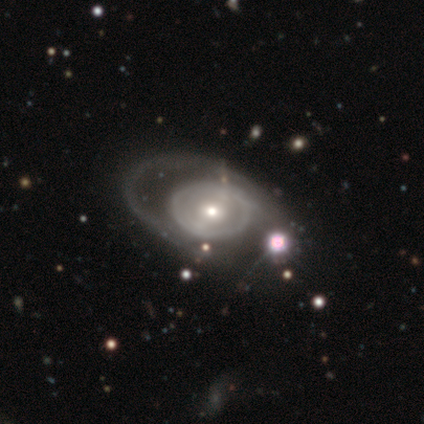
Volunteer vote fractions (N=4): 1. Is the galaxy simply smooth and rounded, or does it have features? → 75% featured or disk, 25% smooth, 0% star or artifact.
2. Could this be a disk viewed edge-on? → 67% no, 33% yes.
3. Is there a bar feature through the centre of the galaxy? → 100% no, 0% strong, 0% weak.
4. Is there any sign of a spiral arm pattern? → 100% no, 0% yes.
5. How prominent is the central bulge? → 100% small, 0% dominant, 0% large, 0% moderate, 0% none.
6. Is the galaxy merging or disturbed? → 100% none, 0% minor disturbance, 0% major disturbance, 0% merger.